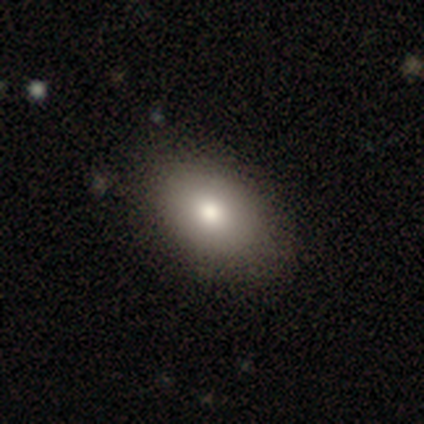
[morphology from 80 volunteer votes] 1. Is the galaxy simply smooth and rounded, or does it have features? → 86% smooth, 8% star or artifact, 6% featured or disk.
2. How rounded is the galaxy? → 91% in between, 9% round, 0% cigar-shaped.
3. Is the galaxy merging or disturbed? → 47% none, 1% minor disturbance, 1% major disturbance, 0% merger.